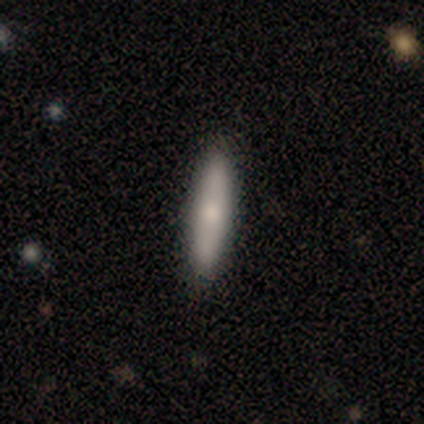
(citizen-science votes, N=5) Smooth or featured?
  - smooth: 80% *
  - featured or disk: 20%
  - star or artifact: 0%
How rounded?
  - cigar-shaped: 100% *
  - round: 0%
  - in between: 0%
Merging?
  - none: 80% *
  - major disturbance: 20%
  - minor disturbance: 0%
  - merger: 0%